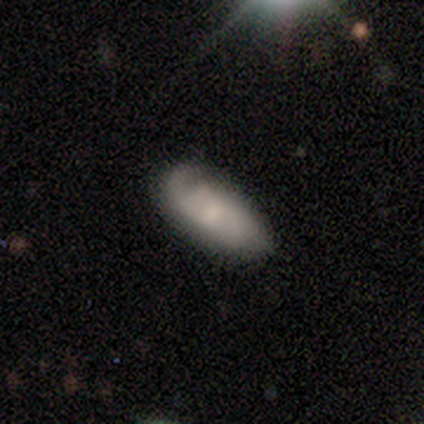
smooth 53%, featured or disk 47%, star or artifact 0%. Down the decision tree: how rounded — in between (100%); merging — none (55%).